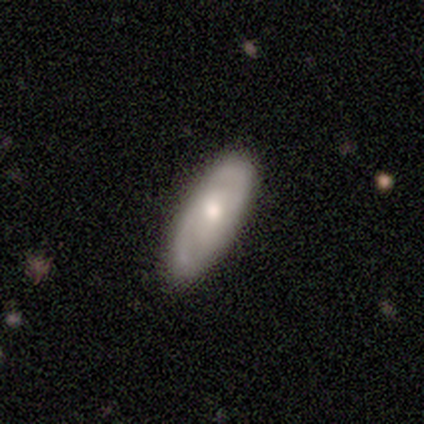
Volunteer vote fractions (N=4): Q: Smooth or featured?
A: smooth (50%); tied with: featured or disk (50%)
Q: How rounded?
A: in between (100%)
Q: Merging?
A: none (100%)